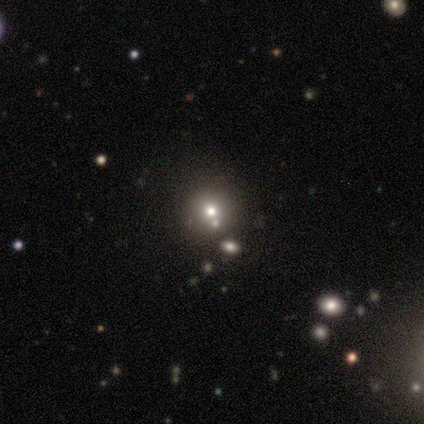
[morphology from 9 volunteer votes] smooth 56%, star or artifact 44%, featured or disk 0%. Down the decision tree: how rounded — round (100%); merging — none (60%).